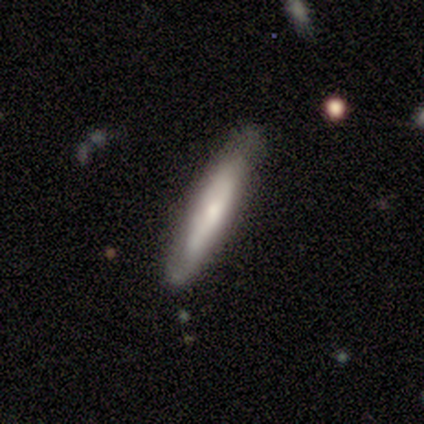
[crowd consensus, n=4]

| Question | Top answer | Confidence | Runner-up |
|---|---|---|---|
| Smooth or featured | featured or disk | 50% | smooth (25%) |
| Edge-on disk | yes | 50% | tied: no (50%) |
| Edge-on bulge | rounded | 100% | — |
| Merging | none | 67% | merger (33%) |